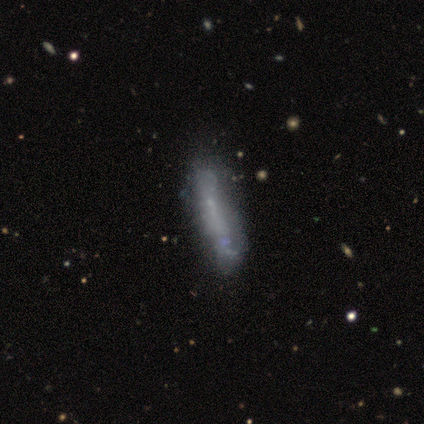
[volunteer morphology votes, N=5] Q: Smooth or featured?
A: smooth (60%); runner-up: featured or disk (40%)
Q: How rounded?
A: cigar-shaped (100%)
Q: Merging?
A: none (40%); tied with: major disturbance (40%)